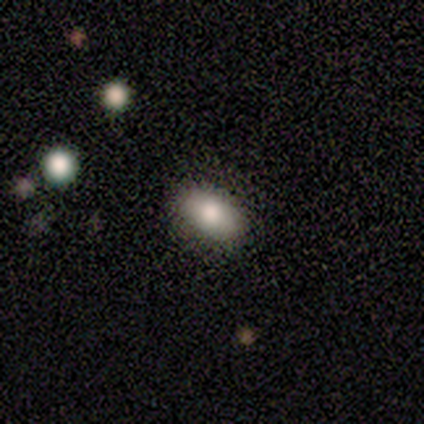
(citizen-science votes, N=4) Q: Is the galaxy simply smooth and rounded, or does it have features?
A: smooth — 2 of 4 (50%, tied with featured or disk).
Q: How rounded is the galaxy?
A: in between — 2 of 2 (100%).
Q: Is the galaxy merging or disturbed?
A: none — 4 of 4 (100%).